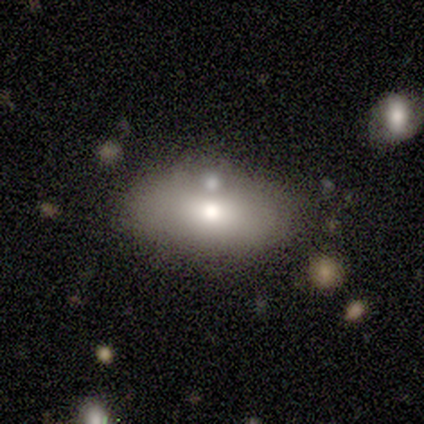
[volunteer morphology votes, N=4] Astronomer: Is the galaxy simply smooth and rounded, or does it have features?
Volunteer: smooth — 75%.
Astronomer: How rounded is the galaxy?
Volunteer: in between — 100%.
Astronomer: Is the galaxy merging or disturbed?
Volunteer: none — 75%.